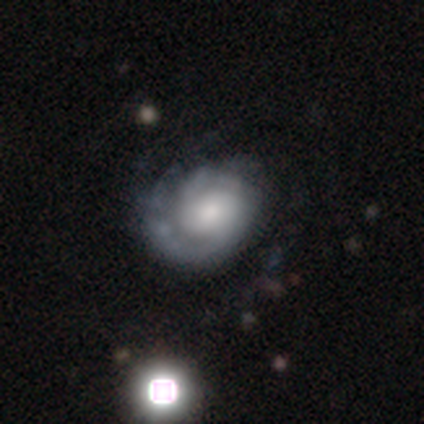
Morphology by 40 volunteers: This is clearly a featured or disk galaxy (80%). It is clearly not viewed edge-on (94%). Bar: likely no (60%). Spiral arm pattern: clearly yes (90%). Spiral arm count: marginally 2 (37%). Spiral winding: possibly tight (52%). Central bulge: possibly moderate (53%). Merging: marginally none (32%).